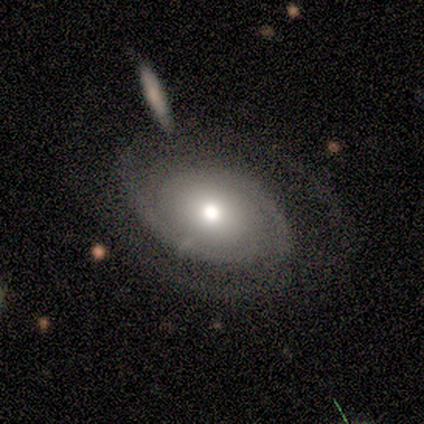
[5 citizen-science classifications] Morphology: type=featured or disk (80%); edge-on=no (100%); bar=no (75%); spiral arms=yes (100%); winding=medium (75%); arm count=2 (75%); bulge=moderate (50%, tied with small); merging=none (100%).